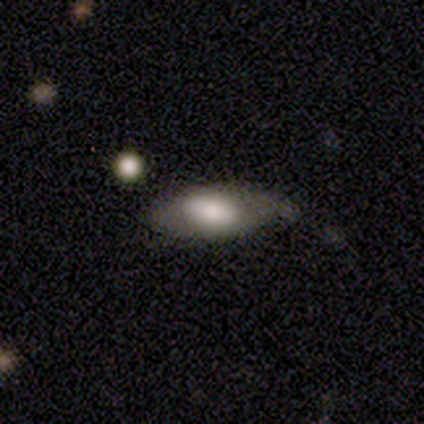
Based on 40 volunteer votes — smooth-or-featured: smooth: 55% | featured or disk: 35% | star or artifact: 10%
  how-rounded: in between: 82% | cigar-shaped: 14% | round: 5%
  merging: minor disturbance: 44% | none: 42% | major disturbance: 14% | merger: 0%